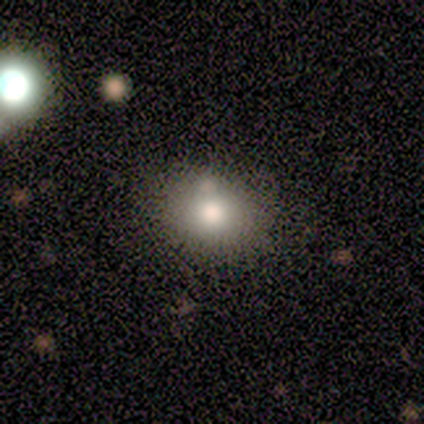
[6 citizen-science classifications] smooth_or_featured: smooth (p=0.67) [alt: featured or disk p=0.17]
how_rounded: round (p=0.50) [tied with: in between p=0.50]
merging: none (p=1.00)